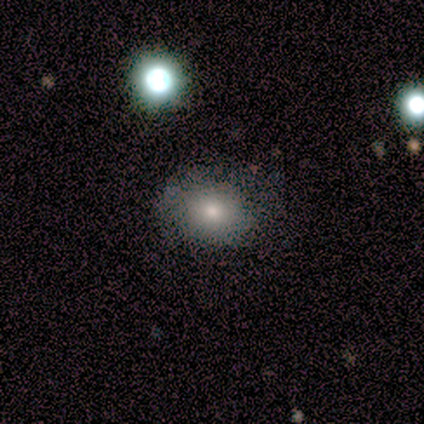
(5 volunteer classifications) This is likely a smooth galaxy (60%). How rounded: clearly in between (100%). Merging: likely none (75%).